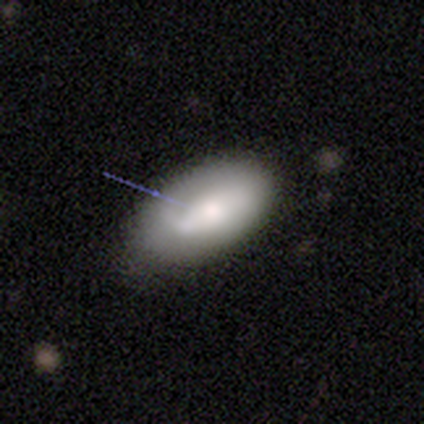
smooth-or-featured: smooth: 60% | featured or disk: 20% | star or artifact: 20%
  how-rounded: in between: 100% | round: 0% | cigar-shaped: 0%
  merging: none: 75% | minor disturbance: 25% | major disturbance: 0% | merger: 0%